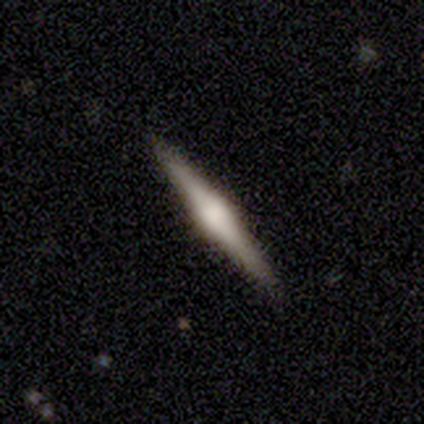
This is clearly a featured or disk galaxy (80%). It is clearly viewed edge-on (100%). Edge-on bulge: likely rounded (75%). Merging: clearly none (100%).